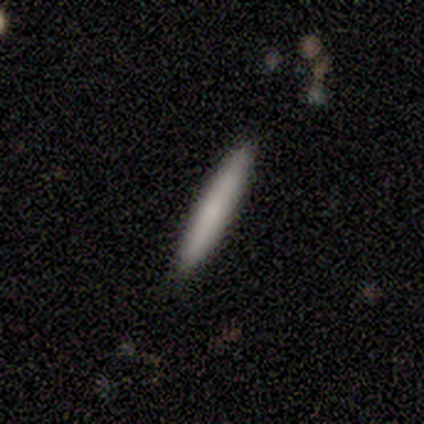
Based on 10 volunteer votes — Q: Smooth or featured?
A: smooth (80%); runner-up: featured or disk (20%)
Q: How rounded?
A: cigar-shaped (100%)
Q: Merging?
A: none (100%)